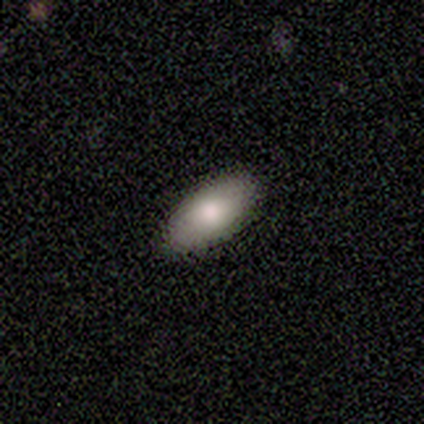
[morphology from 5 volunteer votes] Smooth or featured? smooth (100%)
How rounded? in between (80%)
Merging? none (100%)